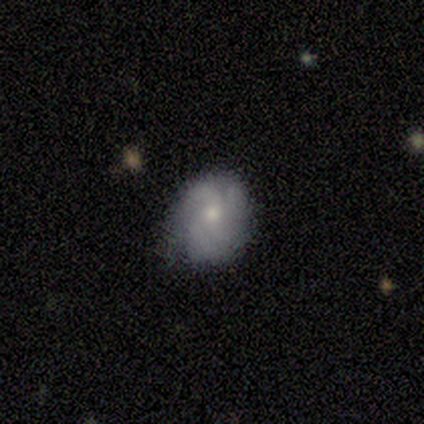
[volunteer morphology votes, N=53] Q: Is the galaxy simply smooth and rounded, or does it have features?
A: featured or disk — 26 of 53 (49%).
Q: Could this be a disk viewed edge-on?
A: no — 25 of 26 (96%).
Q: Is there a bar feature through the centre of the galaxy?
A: no — 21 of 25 (84%).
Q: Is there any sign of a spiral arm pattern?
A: yes — 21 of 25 (84%).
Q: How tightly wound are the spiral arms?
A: tight — 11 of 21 (52%).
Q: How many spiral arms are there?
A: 3 — 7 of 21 (33%).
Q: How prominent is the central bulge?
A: small — 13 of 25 (52%).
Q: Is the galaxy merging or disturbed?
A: none — 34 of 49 (69%).